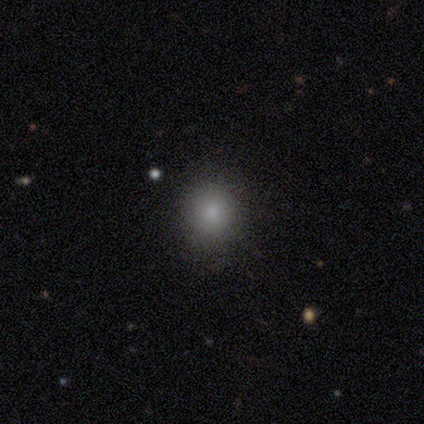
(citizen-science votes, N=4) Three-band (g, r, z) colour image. It shows a smooth galaxy with no disk features (75%) that is round (100%). Merging: none (100%).